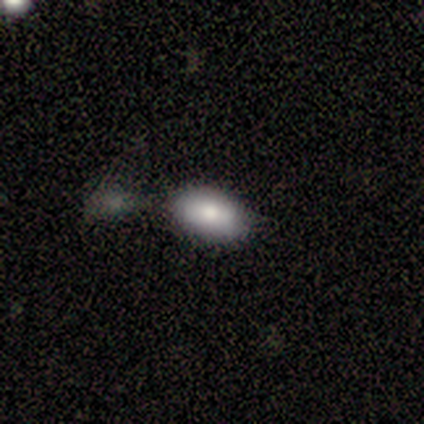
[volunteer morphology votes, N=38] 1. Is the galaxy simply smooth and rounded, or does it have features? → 87% smooth, 8% star or artifact, 5% featured or disk.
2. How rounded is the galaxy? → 88% in between, 12% round, 0% cigar-shaped.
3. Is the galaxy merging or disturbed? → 51% none, 23% minor disturbance, 20% merger, 6% major disturbance.